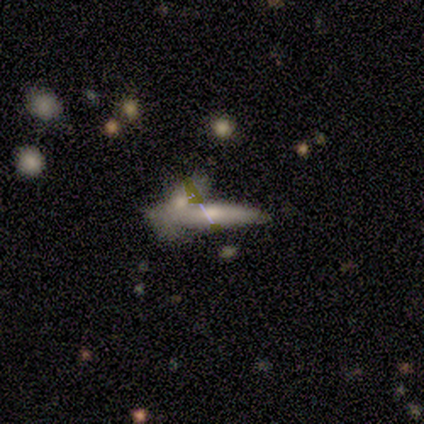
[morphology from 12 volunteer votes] Q: Smooth or featured?
A: smooth (67%); runner-up: featured or disk (25%)
Q: How rounded?
A: cigar-shaped (100%)
Q: Merging?
A: none (55%); runner-up: minor disturbance (18%)